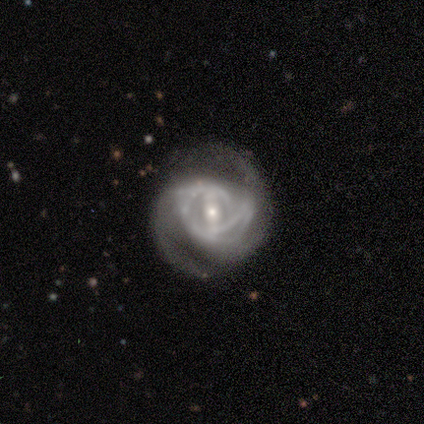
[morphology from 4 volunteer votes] featured or disk 100%, smooth 0%, star or artifact 0%. Down the decision tree: edge-on disk — no (75%); bar — weak (67%); spiral arms — yes (100%); spiral arm count — can't tell (67%); spiral winding — medium (100%); bulge size — small (67%); merging — none (75%).